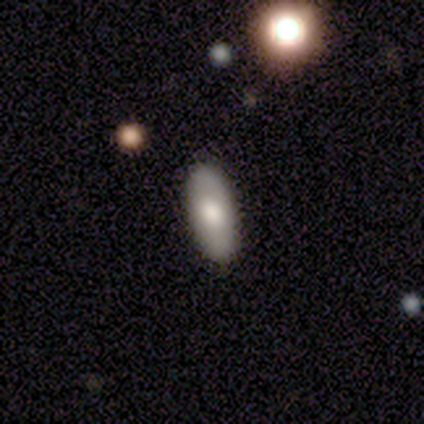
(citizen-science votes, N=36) This is clearly a smooth galaxy (83%). How rounded: clearly in between (87%). Merging: clearly none (89%).